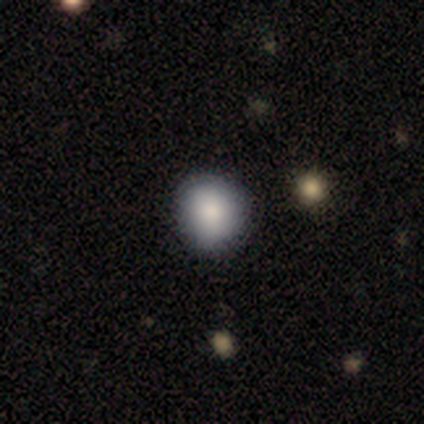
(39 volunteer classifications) Morphology: type=smooth (90%); roundness=round (91%); merging=none (66%).